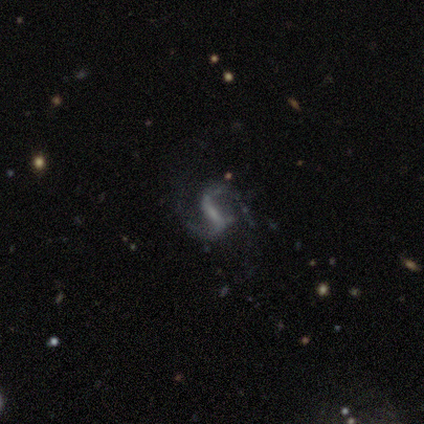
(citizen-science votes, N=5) featured or disk 100%, smooth 0%, star or artifact 0%. Down the decision tree: edge-on disk — no (100%); bar — strong (60%); spiral arms — yes (80%); spiral arm count — 2 (100%); spiral winding — medium (50%, tied with loose); bulge size — none (40%); merging — none (80%).